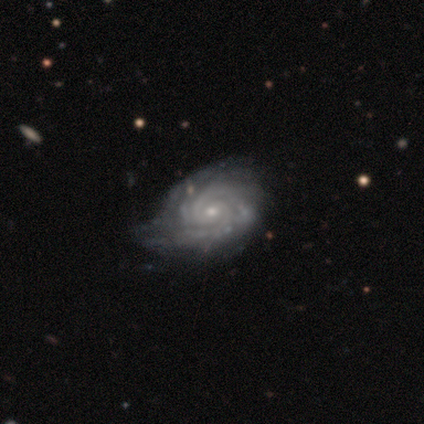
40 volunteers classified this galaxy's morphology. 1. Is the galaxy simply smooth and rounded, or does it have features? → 98% featured or disk, 2% smooth, 0% star or artifact.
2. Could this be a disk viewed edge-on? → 100% no, 0% yes.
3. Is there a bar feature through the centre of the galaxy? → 74% no, 21% weak, 5% strong.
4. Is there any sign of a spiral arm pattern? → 100% yes, 0% no.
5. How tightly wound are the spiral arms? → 85% tight, 10% medium, 5% loose.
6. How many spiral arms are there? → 36% 2, 31% 3, 15% 4, 10% can't tell, 8% more than 4, 0% 1.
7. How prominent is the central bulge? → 77% small, 18% moderate, 3% dominant, 3% large, 0% none.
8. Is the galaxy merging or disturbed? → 45% none, 38% minor disturbance, 18% major disturbance, 0% merger.